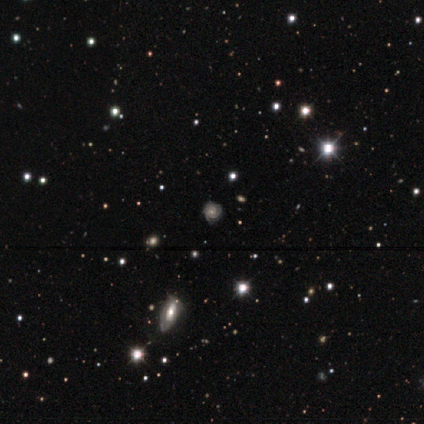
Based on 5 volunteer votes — Volunteers were most divided on "smooth or featured": smooth: 60%, featured or disk: 40%, star or artifact: 0%. More confident: how rounded — round (100%); merging — none (60%).